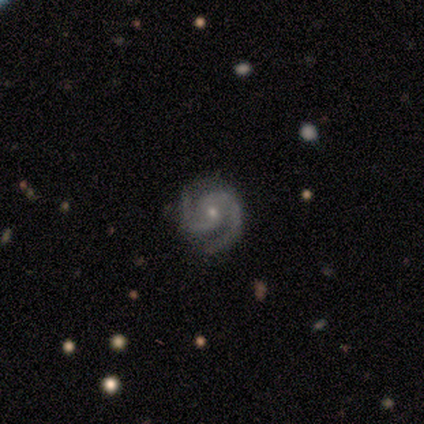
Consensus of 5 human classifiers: smooth_or_featured: featured or disk (p=0.80) [alt: smooth p=0.20]
disk_edge_on: no (p=1.00)
bar: weak (p=0.50) [tied with: no p=0.50]
has_spiral_arms: yes (p=1.00)
spiral_winding: tight (p=0.50) [tied with: medium p=0.50]
spiral_arm_count: 2 (p=1.00)
bulge_size: small (p=0.75) [alt: moderate p=0.25]
merging: none (p=0.80) [alt: minor disturbance p=0.20]